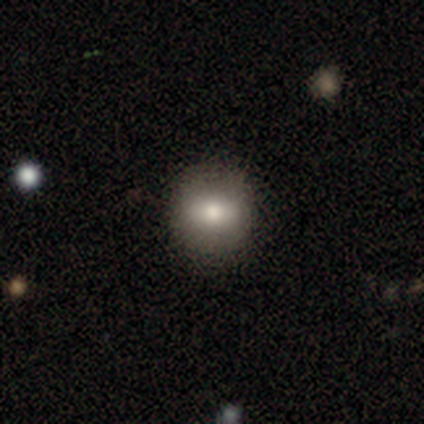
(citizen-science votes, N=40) smooth-or-featured: smooth: 60% | featured or disk: 30% | star or artifact: 10%
  how-rounded: round: 88% | in between: 12% | cigar-shaped: 0%
  merging: none: 83% | minor disturbance: 8% | major disturbance: 8% | merger: 0%